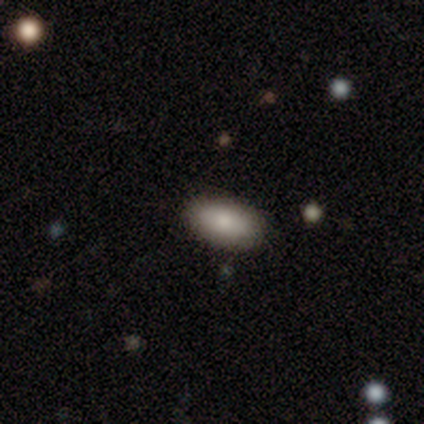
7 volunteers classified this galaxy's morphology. Q: Smooth or featured?
A: smooth (100%)
Q: How rounded?
A: in between (86%); runner-up: cigar-shaped (14%)
Q: Merging?
A: none (86%); runner-up: minor disturbance (14%)